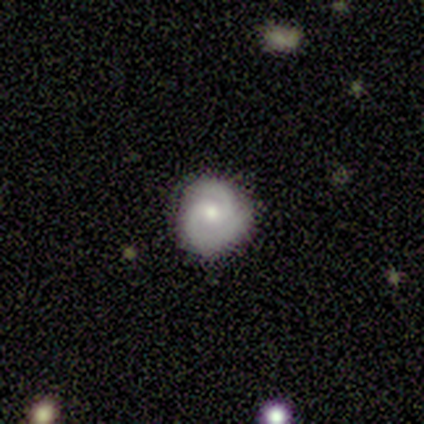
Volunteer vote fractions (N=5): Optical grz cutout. It shows a featured or disk galaxy (100%) with no bar (80%), 2 (100%) tight (100%) spiral arms (100%) and a moderate central bulge (80%). Merging: none (80%).